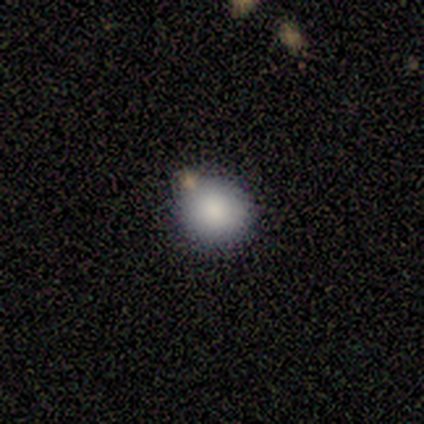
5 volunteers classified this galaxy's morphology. Q: Smooth or featured?
A: smooth (100%)
Q: How rounded?
A: round (100%)
Q: Merging?
A: none (60%); runner-up: minor disturbance (20%)